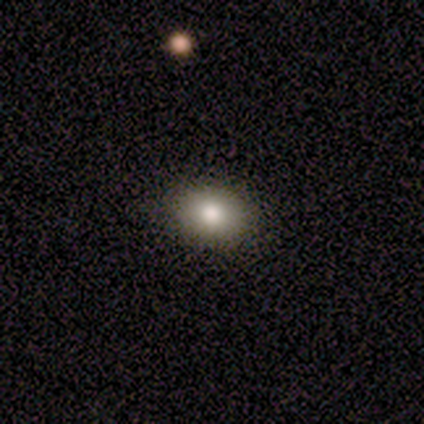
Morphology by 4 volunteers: A smooth galaxy with no disk features (100%) that is in between round and cigar-shaped (75%). Merging: none (100%).